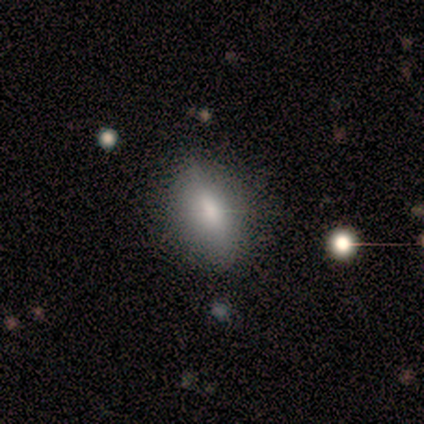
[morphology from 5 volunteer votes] type=smooth (80%); roundness=in between (75%); merging=none (50%).